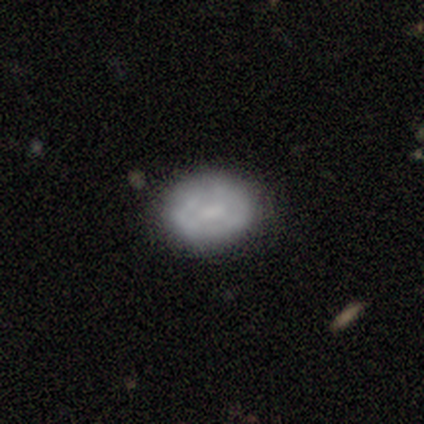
smooth_or_featured: smooth (p=0.61) [alt: featured or disk p=0.35]
how_rounded: in between (p=0.63) [alt: round p=0.37]
merging: none (p=0.80) [alt: minor disturbance p=0.15]